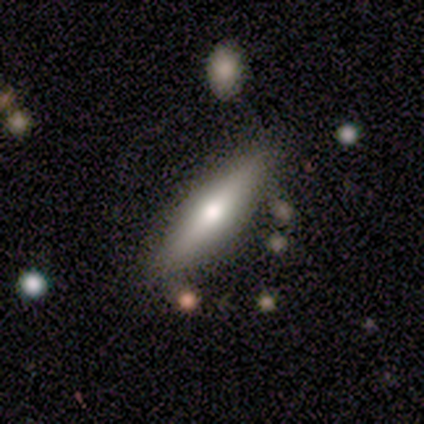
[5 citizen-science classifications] This is marginally a featured or disk galaxy (40%, tied with star or artifact). It is clearly viewed edge-on (100%). Edge-on bulge: clearly rounded (100%). Merging: clearly none (100%).